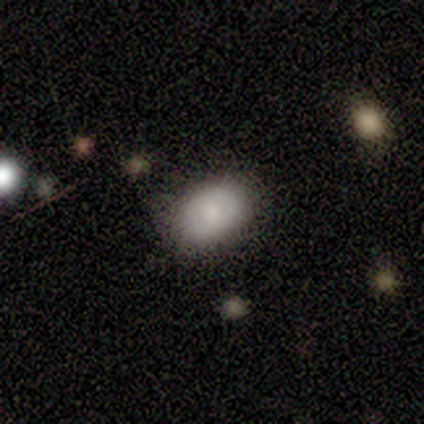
smooth_or_featured: smooth (p=0.50) [tied with: featured or disk p=0.50]
how_rounded: in between (p=1.00)
merging: none (p=0.50) [tied with: minor disturbance p=0.50]